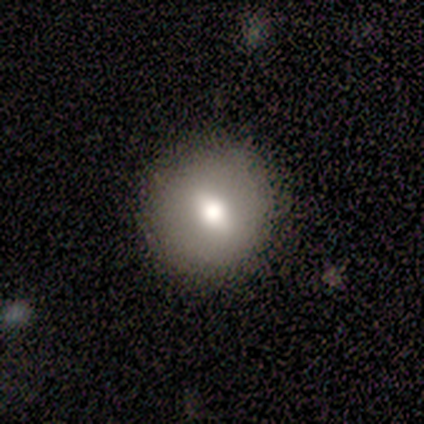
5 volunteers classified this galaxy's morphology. Overall: smooth (60%; featured or disk 20%). How rounded: round (100%). Merging: none (100%).